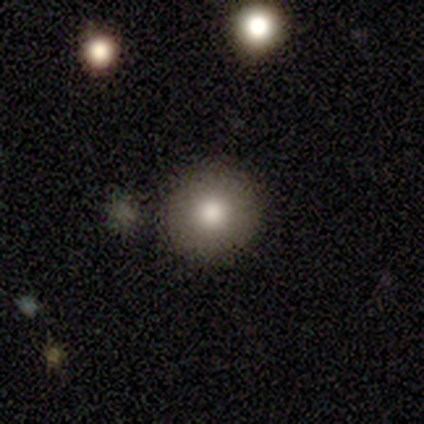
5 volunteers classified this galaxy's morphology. Overall: smooth (40%, tied with featured or disk). How rounded: round (100%). Merging: none (100%).